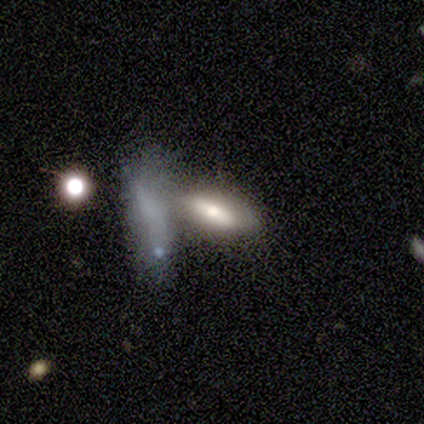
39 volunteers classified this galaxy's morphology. type=smooth (51%); roundness=in between (85%); merging=none (40%, tied with merger).